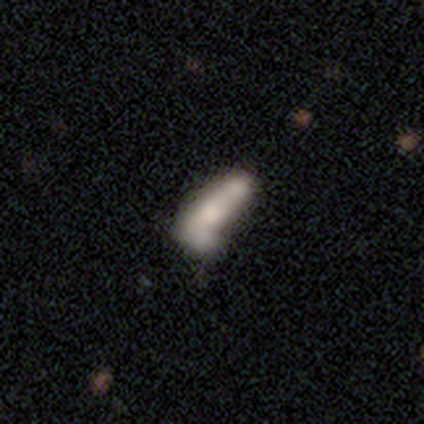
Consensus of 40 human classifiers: Smooth or featured? smooth (48%)
How rounded? cigar-shaped (58%)
Merging? merger (30%)